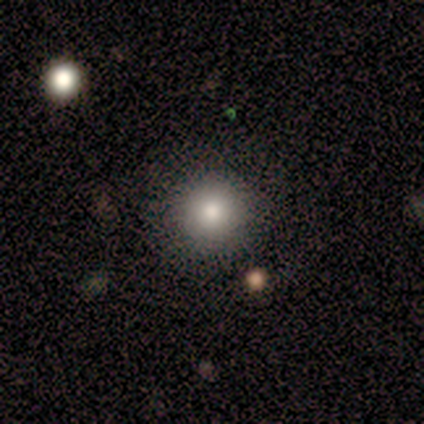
Overall: smooth (100%). How rounded: round (100%). Merging: none (60%; minor disturbance 20%).